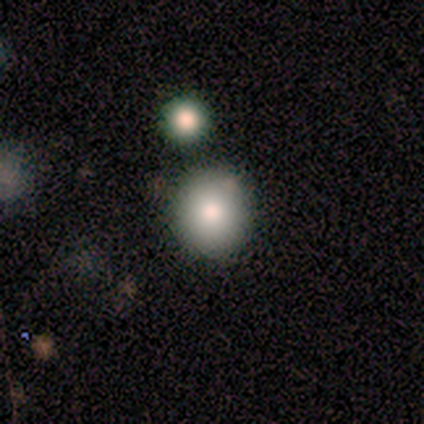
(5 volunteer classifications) A smooth galaxy with no disk features (100%) that is round (80%).

Vote fractions:
- Smooth or featured? smooth: 100% / featured or disk: 0% / star or artifact: 0%
- How rounded? round: 80% / in between: 20% / cigar-shaped: 0%
- Merging? none: 80% / minor disturbance: 20% / major disturbance: 0% / merger: 0%